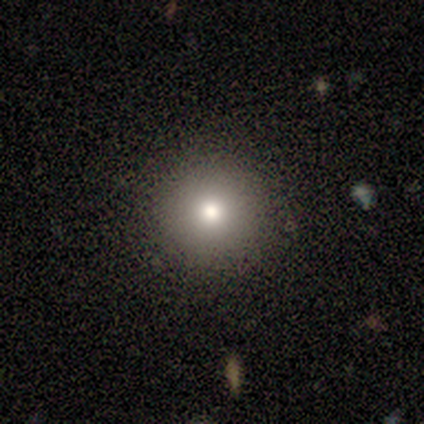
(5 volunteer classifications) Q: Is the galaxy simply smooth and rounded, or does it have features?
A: smooth — 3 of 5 (60%).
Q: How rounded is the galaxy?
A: round — 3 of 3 (100%).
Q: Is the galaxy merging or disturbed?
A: none — 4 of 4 (100%).